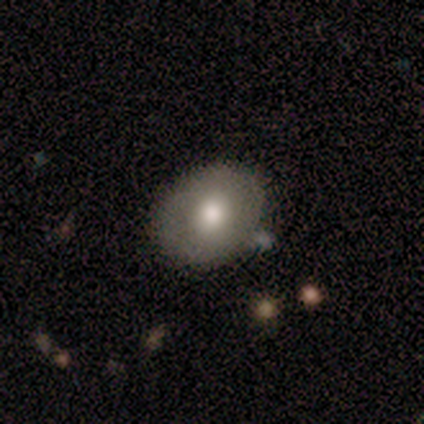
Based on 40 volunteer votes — Smooth or featured?
  - smooth: 60% *
  - featured or disk: 35%
  - star or artifact: 5%
How rounded?
  - round: 71% *
  - in between: 29%
  - cigar-shaped: 0%
Merging?
  - none: 79% *
  - major disturbance: 11%
  - minor disturbance: 8%
  - merger: 3%